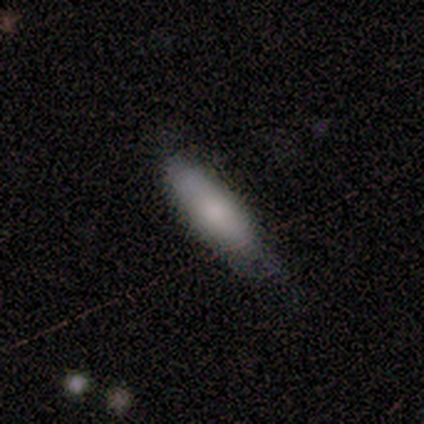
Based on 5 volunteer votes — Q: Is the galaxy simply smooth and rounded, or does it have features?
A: smooth — 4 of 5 (80%).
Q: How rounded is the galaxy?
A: in between — 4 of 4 (100%).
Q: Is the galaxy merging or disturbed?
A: none — 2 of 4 (50%, tied with minor disturbance).